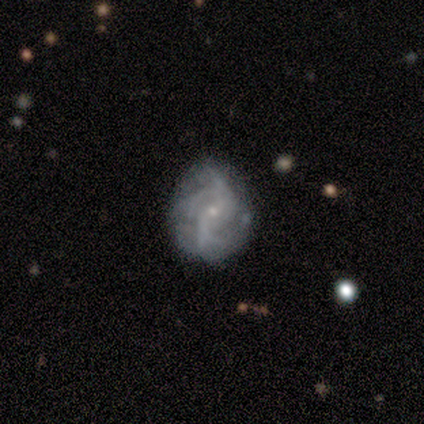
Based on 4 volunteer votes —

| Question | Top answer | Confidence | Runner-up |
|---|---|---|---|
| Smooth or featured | featured or disk | 100% | — |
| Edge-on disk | no | 100% | — |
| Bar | no | 75% | weak (25%) |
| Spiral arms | yes | 100% | — |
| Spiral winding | loose | 75% | tight (25%) |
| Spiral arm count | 3 | 50% | 4 (25%) |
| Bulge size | small | 100% | — |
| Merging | none | 75% | minor disturbance (25%) |